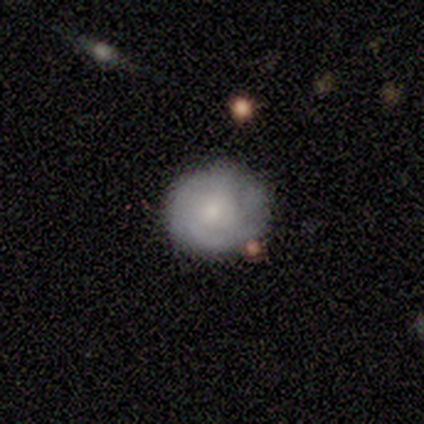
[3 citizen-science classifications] Volunteers were most divided on "merging" (3-way tie): none: 33%, minor disturbance: 33%, major disturbance: 33%, merger: 0%. More confident: how rounded — round (100%); smooth or featured — smooth (67%).